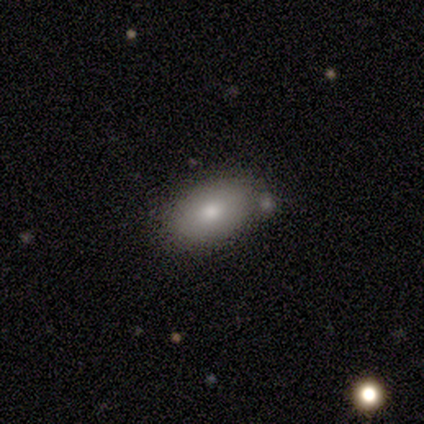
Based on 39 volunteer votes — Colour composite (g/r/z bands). It shows a smooth galaxy with no disk features (97%) that is in between round and cigar-shaped (92%). Merging: none (72%).